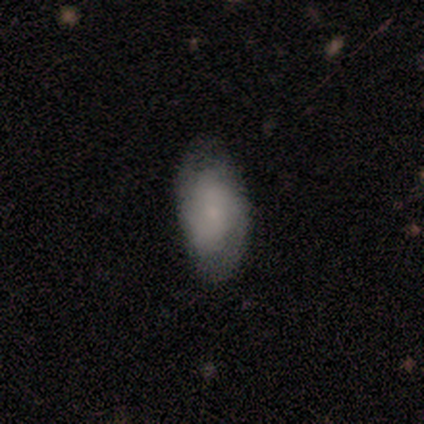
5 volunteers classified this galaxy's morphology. Volunteers were most divided on "spiral winding" (3-way tie): tight: 33%, medium: 33%, loose: 33%. More confident: edge-on disk — no (100%); bar — no (100%); spiral arms — yes (100%); bulge size — small (100%); merging — none (80%); spiral arm count — 2 (67%); smooth or featured — featured or disk (60%).